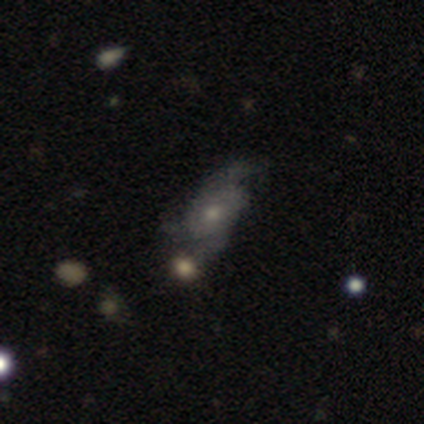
smooth_or_featured: featured or disk (p=1.00)
disk_edge_on: no (p=1.00)
bar: no (p=1.00)
has_spiral_arms: yes (p=1.00)
spiral_winding: medium (p=0.50) [tied with: loose p=0.50]
spiral_arm_count: 3 (p=0.50) [alt: 2 p=0.25]
bulge_size: moderate (p=0.50) [tied with: small p=0.50]
merging: none (p=0.50) [alt: minor disturbance p=0.25]